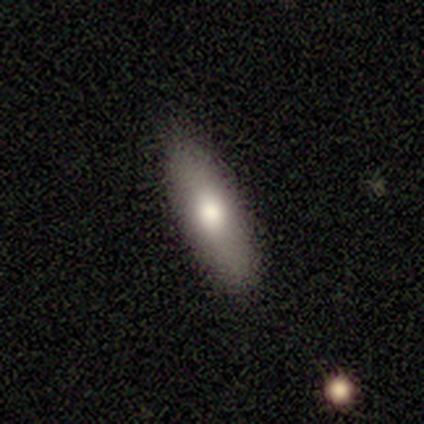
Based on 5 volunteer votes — This is clearly a smooth galaxy (80%). How rounded: clearly cigar-shaped (100%). Merging: likely none (75%).